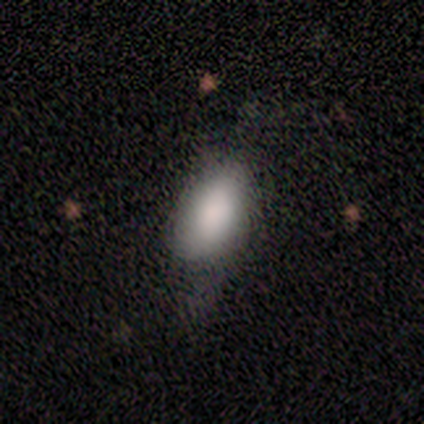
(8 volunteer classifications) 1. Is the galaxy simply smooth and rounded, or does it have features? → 75% smooth, 25% featured or disk, 0% star or artifact.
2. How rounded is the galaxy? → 100% in between, 0% round, 0% cigar-shaped.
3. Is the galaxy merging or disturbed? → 62% minor disturbance, 38% none, 0% major disturbance, 0% merger.